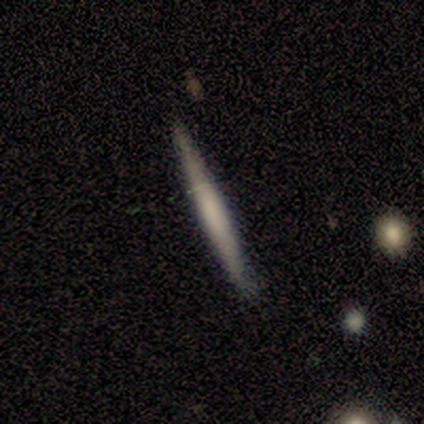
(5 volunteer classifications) smooth_or_featured: smooth (p=1.00)
how_rounded: cigar-shaped (p=1.00)
merging: none (p=1.00)